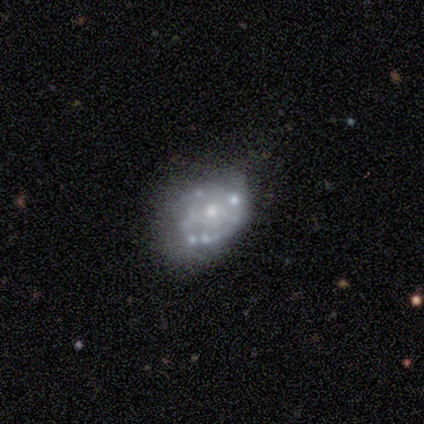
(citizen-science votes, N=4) Smooth or featured? featured or disk (50%)
Edge-on disk? no (100%)
Bar? no (100%)
Spiral arms? yes (50%, tied with no)
Spiral winding? medium (100%)
Spiral arm count? can't tell (100%)
Bulge size? moderate (50%, tied with none)
Merging? minor disturbance (67%)